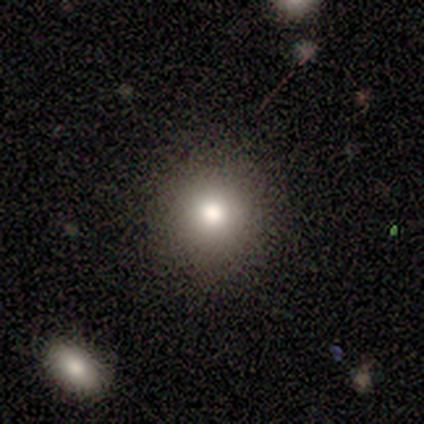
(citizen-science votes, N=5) Smooth or featured? smooth (80%)
How rounded? round (100%)
Merging? none (100%)